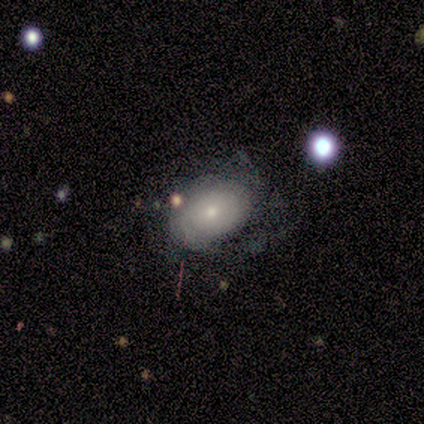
Smooth or featured? 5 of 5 (100%) said featured or disk. Edge-on disk? 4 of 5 (80%) said no. Bar? 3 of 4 (75%) said no. Spiral arms? 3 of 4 (75%) said yes. Spiral winding? 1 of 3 (33%, tied with medium and loose) said tight. Spiral arm count? 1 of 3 (33%, tied with 4 and can't tell) said 1. Bulge size? 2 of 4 (50%) said moderate. Merging? 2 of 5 (40%, tied with minor disturbance) said none.